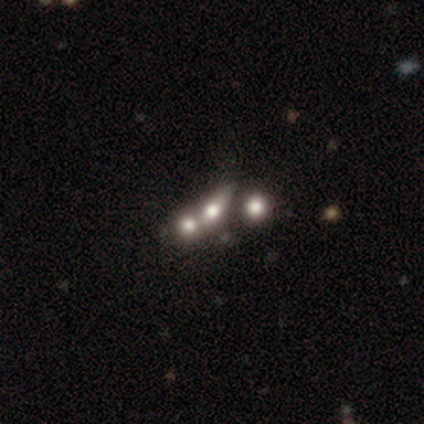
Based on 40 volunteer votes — Smooth or featured: smooth — 38% (tied with featured or disk — 38%)
How rounded: in between — 60% (round — 33%)
Merging: merger — 47% (minor disturbance — 13%)